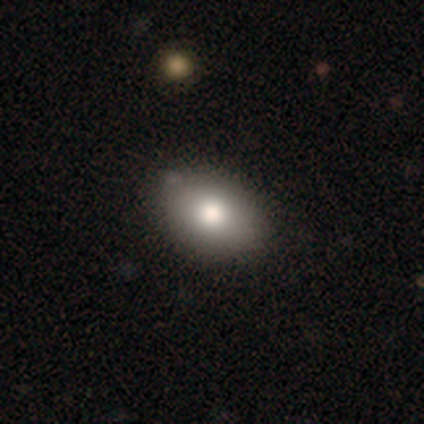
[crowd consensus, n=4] Q: Smooth or featured?
A: smooth (75%); runner-up: featured or disk (25%)
Q: How rounded?
A: in between (67%); runner-up: round (33%)
Q: Merging?
A: none (100%)